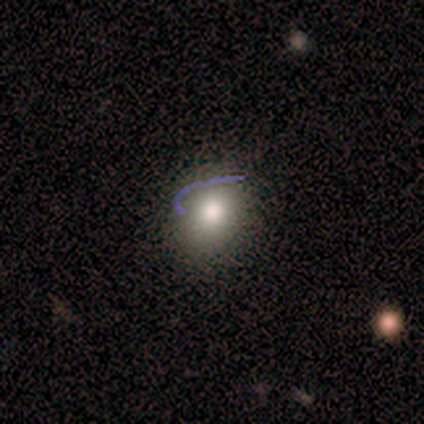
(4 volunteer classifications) A smooth galaxy with no disk features (50%) that is in between round and cigar-shaped (100%).

Vote fractions:
- Smooth or featured? smooth: 50% / featured or disk: 25% / star or artifact: 25%
- How rounded? in between: 100% / round: 0% / cigar-shaped: 0%
- Merging? none: 100% / minor disturbance: 0% / major disturbance: 0% / merger: 0%